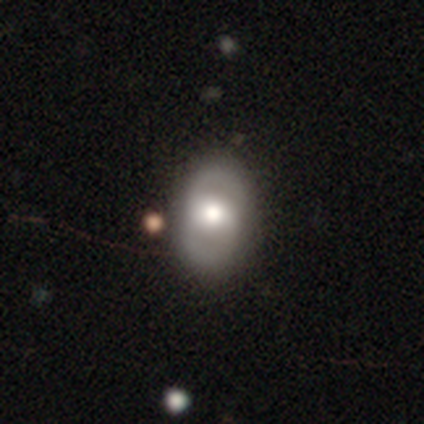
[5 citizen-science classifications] A featured or disk galaxy (80%) with no bar (75%), 2 (50%, tied with can't tell) tight (100%) spiral arms (50%, tied with no) and a moderate central bulge (50%). Merging: none (60%).